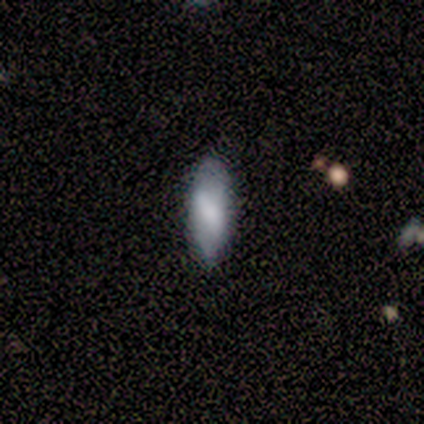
Smooth or featured?
  - smooth: 80% *
  - star or artifact: 20%
  - featured or disk: 0%
How rounded?
  - in between: 100% *
  - round: 0%
  - cigar-shaped: 0%
Merging?
  - none: 100% *
  - minor disturbance: 0%
  - major disturbance: 0%
  - merger: 0%